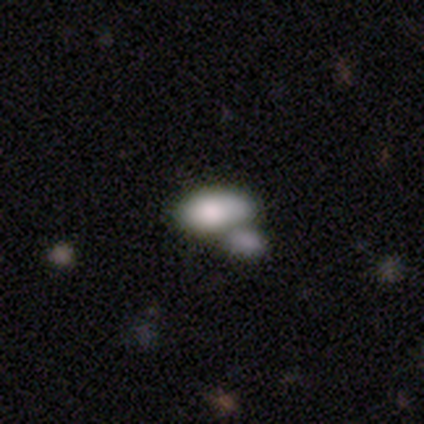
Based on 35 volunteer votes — Smooth or featured? smooth (86%)
How rounded? in between (90%)
Merging? merger (73%)